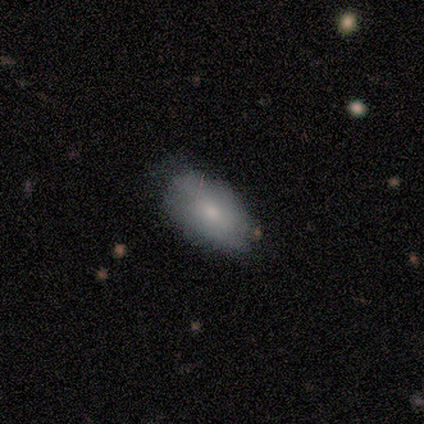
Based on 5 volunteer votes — Smooth or featured? smooth (60%)
How rounded? in between (100%)
Merging? none (75%)